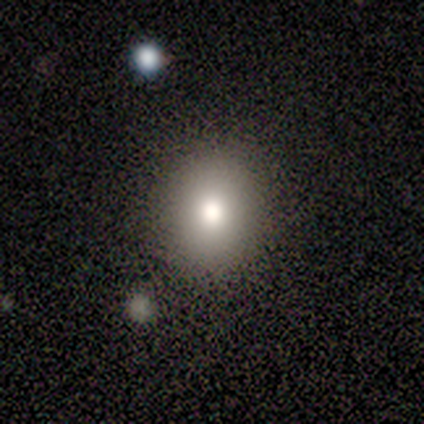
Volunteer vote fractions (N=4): A smooth galaxy with no disk features (50%) that is round (50%, tied with in between).

Vote fractions:
- Smooth or featured? smooth: 50% / featured or disk: 25% / star or artifact: 25%
- How rounded? round: 50% (tied) / in between: 50% (tied) / cigar-shaped: 0%
- Merging? none: 67% / minor disturbance: 33% / major disturbance: 0% / merger: 0%